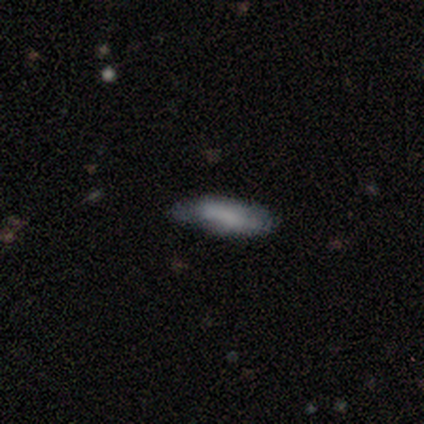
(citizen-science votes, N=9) Q: Smooth or featured?
A: smooth (78%); runner-up: featured or disk (11%)
Q: How rounded?
A: in between (57%); runner-up: cigar-shaped (43%)
Q: Merging?
A: minor disturbance (75%); runner-up: none (25%)